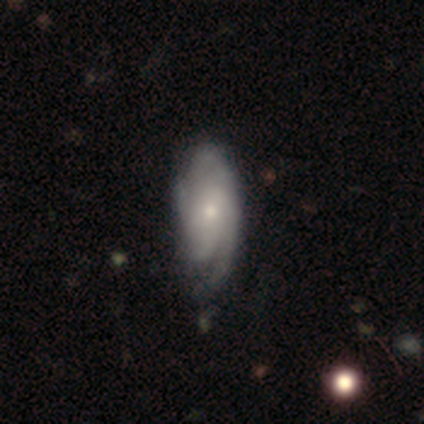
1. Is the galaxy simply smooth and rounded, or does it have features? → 90% featured or disk, 10% smooth, 0% star or artifact.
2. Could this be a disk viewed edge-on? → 92% no, 8% yes.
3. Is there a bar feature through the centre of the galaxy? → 85% no, 15% weak, 0% strong.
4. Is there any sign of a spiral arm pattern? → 97% yes, 3% no.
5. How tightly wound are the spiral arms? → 41% tight, 38% medium, 22% loose.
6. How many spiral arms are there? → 31% can't tell, 25% 3, 16% 1, 16% 4, 6% 2, 6% more than 4.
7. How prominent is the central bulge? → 64% small, 30% moderate, 3% large, 3% none, 0% dominant.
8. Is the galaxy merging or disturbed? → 35% minor disturbance, 30% none, 8% major disturbance, 0% merger.